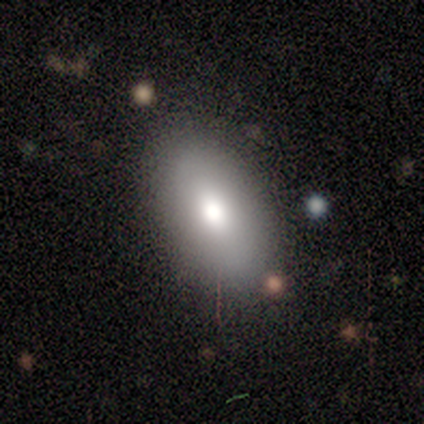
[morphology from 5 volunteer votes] Smooth or featured? smooth (60%)
How rounded? in between (67%)
Merging? none (80%)